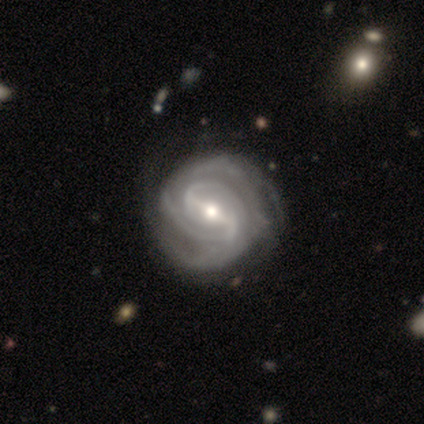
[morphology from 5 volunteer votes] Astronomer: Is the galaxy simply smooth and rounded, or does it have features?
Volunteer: featured or disk — 100%.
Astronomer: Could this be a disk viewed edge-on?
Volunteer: no — 100%.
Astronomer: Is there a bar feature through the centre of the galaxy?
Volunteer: strong — 100%.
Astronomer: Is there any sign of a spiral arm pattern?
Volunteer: yes — 100%.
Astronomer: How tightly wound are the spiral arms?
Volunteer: tight — 40%, tied with medium at 40%.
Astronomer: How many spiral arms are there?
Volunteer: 2 — 40%, tied with 4 at 40%.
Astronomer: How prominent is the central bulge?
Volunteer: moderate — 100%.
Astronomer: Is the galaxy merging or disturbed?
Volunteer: none — 80%.